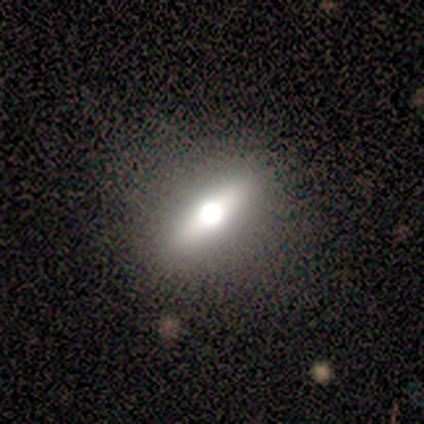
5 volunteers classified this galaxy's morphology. type=featured or disk (60%); edge-on=yes (67%); edge-on bulge=rounded (100%); merging=none (100%).